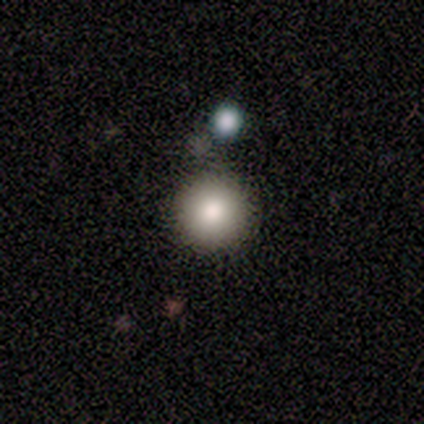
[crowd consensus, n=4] This appears to be a smooth galaxy with no disk features (100%) that is round (100%). Merging: none (75%).